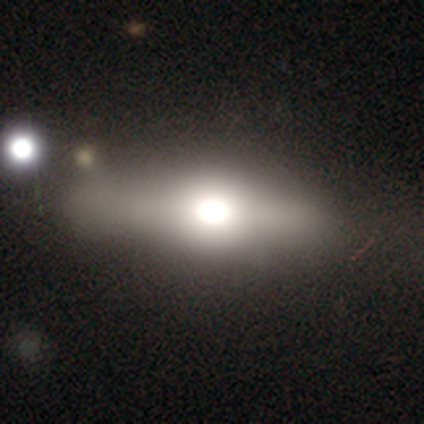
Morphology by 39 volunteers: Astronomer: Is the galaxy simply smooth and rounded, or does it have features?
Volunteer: smooth — 56% (runner-up: featured or disk, 36%).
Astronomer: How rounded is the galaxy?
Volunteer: in between — 68%.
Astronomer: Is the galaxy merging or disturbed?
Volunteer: none — 69%.